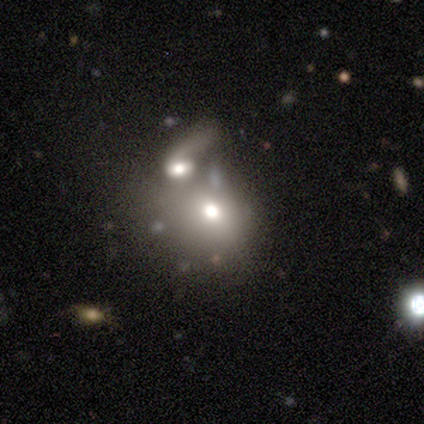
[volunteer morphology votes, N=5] Q: Smooth or featured?
A: featured or disk (80%); runner-up: smooth (20%)
Q: Edge-on disk?
A: no (75%); runner-up: yes (25%)
Q: Bar?
A: no (100%)
Q: Spiral arms?
A: yes (67%); runner-up: no (33%)
Q: Spiral winding?
A: loose (100%)
Q: Spiral arm count?
A: 1 (50%); tied with: 2 (50%)
Q: Bulge size?
A: moderate (100%)
Q: Merging?
A: merger (80%); runner-up: minor disturbance (20%)